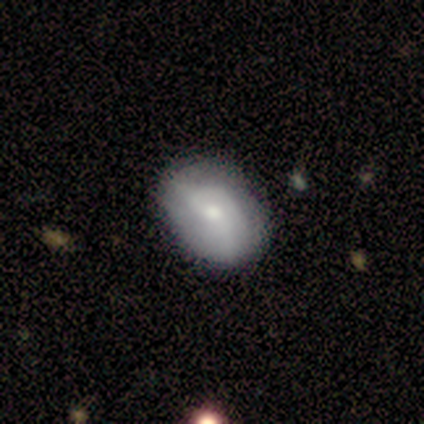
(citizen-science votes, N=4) Smooth or featured: smooth — 75% (featured or disk — 25%)
How rounded: in between — 100%
Merging: none — 75% (minor disturbance — 25%)